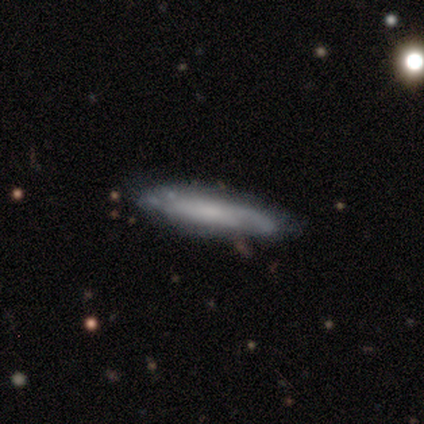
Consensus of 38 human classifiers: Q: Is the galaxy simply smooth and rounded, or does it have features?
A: featured or disk — 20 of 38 (53%).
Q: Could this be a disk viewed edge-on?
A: yes — 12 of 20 (60%).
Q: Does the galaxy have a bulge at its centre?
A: none — 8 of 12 (67%).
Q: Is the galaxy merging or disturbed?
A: none — 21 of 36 (58%).